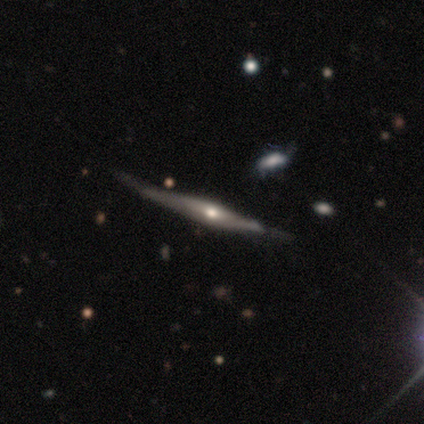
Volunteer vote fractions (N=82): A featured or disk galaxy (83%) viewed edge-on (93%) with a rounded central bulge (87%). Merging: none (57%).